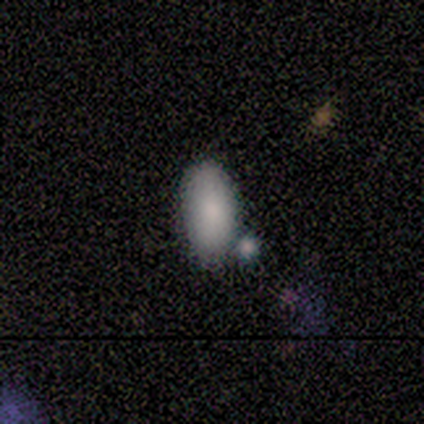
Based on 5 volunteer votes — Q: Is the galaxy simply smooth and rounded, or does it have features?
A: smooth — 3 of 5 (60%).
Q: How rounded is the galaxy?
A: in between — 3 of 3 (100%).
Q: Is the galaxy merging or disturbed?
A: none — 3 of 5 (60%).